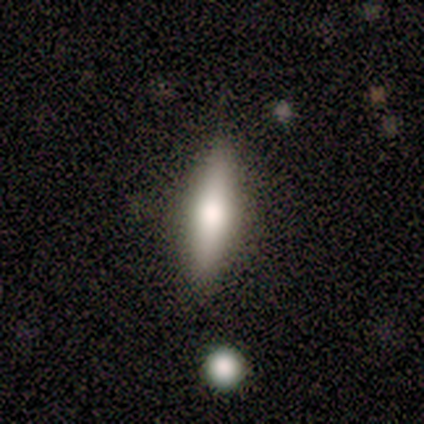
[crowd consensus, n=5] Morphology: type=smooth (60%); roundness=in between (67%); merging=none (80%).